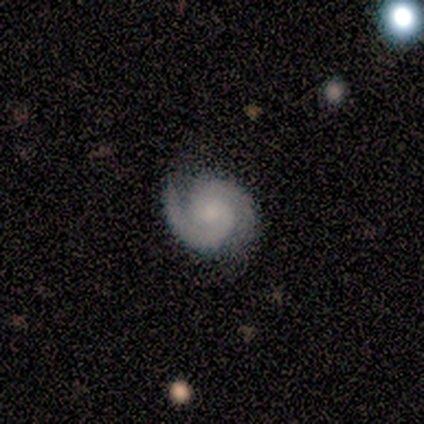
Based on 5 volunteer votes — featured or disk 100%, smooth 0%, star or artifact 0%. Down the decision tree: edge-on disk — no (100%); bar — no (100%); spiral arms — yes (100%); spiral arm count — 2 (100%); spiral winding — tight (100%); bulge size — small (60%); merging — none (80%).